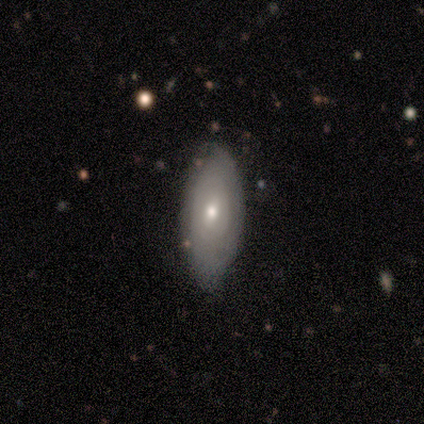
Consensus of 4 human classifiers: smooth_or_featured: smooth (p=0.75) [alt: featured or disk p=0.25]
how_rounded: in between (p=1.00)
merging: none (p=1.00)